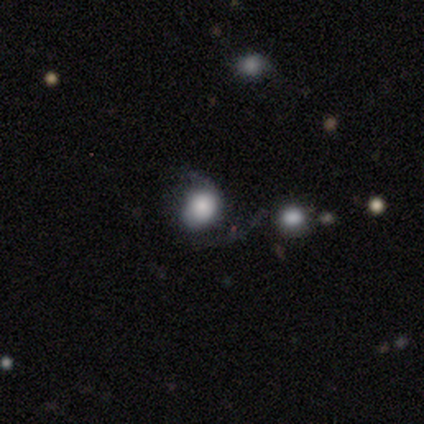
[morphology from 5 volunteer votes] smooth-or-featured: smooth: 60% | featured or disk: 20% | star or artifact: 20%
  how-rounded: round: 67% | in between: 33% | cigar-shaped: 0%
  merging: none: 50% | minor disturbance: 25% | merger: 25% | major disturbance: 0%